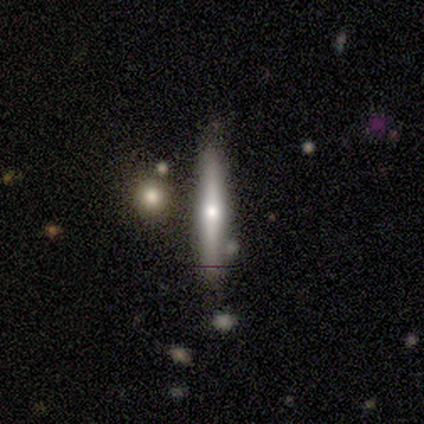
Overall: smooth (46%, tied with featured or disk). How rounded: cigar-shaped (100%). Merging: none (58%; merger 25%).